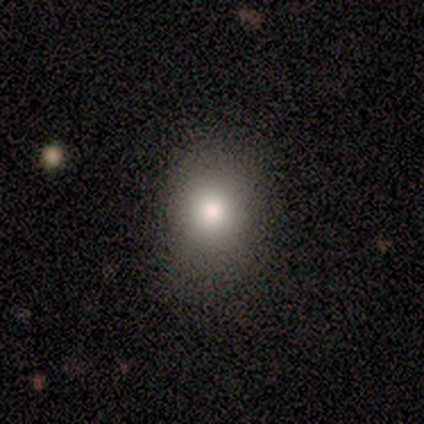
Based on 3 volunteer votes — Smooth or featured?
  - smooth: 100% *
  - featured or disk: 0%
  - star or artifact: 0%
How rounded?
  - round: 100% *
  - in between: 0%
  - cigar-shaped: 0%
Merging?
  - none: 100% *
  - minor disturbance: 0%
  - major disturbance: 0%
  - merger: 0%